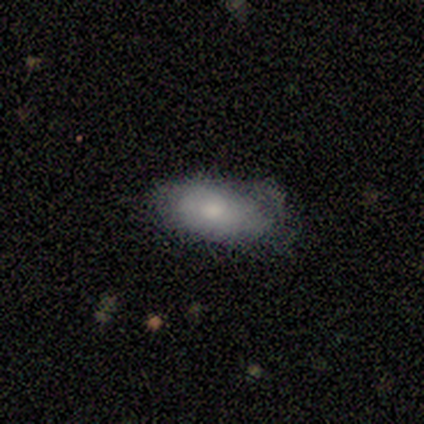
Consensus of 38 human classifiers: Smooth or featured? smooth (68%)
How rounded? in between (96%)
Merging? none (59%)